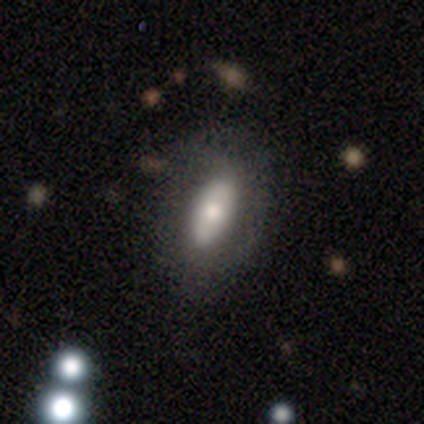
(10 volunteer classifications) Overall: smooth (70%). How rounded: in between (86%). Merging: none (67%; minor disturbance 33%).